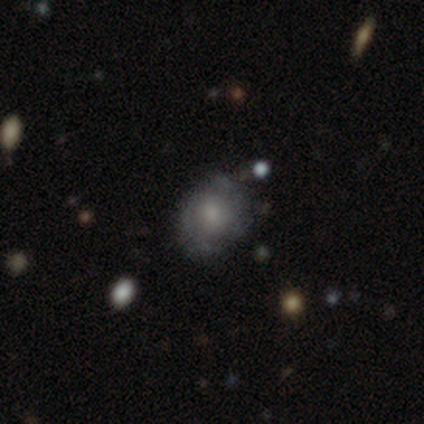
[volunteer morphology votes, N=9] Q: Smooth or featured?
A: featured or disk (78%); runner-up: smooth (11%)
Q: Edge-on disk?
A: no (86%); runner-up: yes (14%)
Q: Bar?
A: no (67%); runner-up: weak (33%)
Q: Spiral arms?
A: yes (67%); runner-up: no (33%)
Q: Spiral winding?
A: tight (50%); tied with: medium (50%)
Q: Spiral arm count?
A: can't tell (50%); runner-up: 2 (25%)
Q: Bulge size?
A: moderate (50%); tied with: small (50%)
Q: Merging?
A: none (62%); runner-up: minor disturbance (38%)